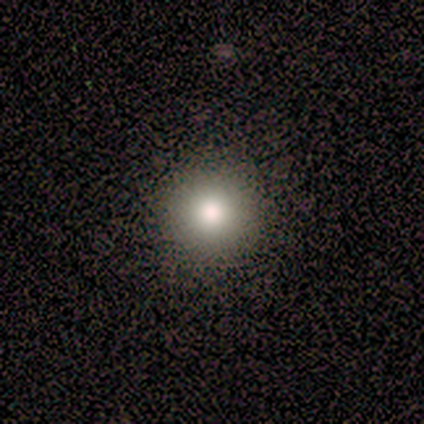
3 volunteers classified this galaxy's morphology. Smooth or featured? smooth (67%)
How rounded? round (100%)
Merging? none (100%)